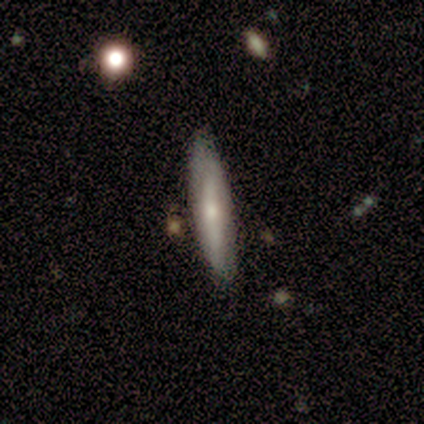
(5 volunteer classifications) Smooth or featured? featured or disk (60%)
Edge-on disk? yes (67%)
Edge-on bulge? rounded (100%)
Merging? none (60%)